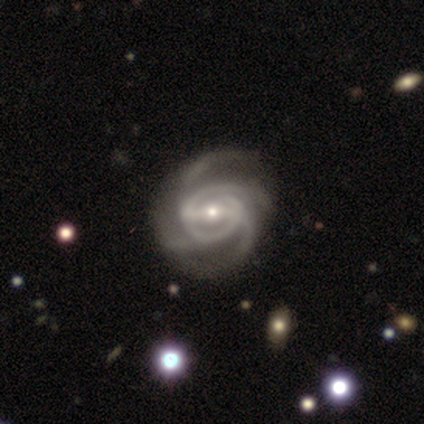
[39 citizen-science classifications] This is clearly a featured or disk galaxy (85%). It is clearly not viewed edge-on (100%). Bar: likely strong (67%). Spiral arm pattern: clearly yes (100%). Spiral arm count: likely 4 (64%). Spiral winding: likely medium (64%). Central bulge: possibly small (52%). Merging: clearly none (83%).